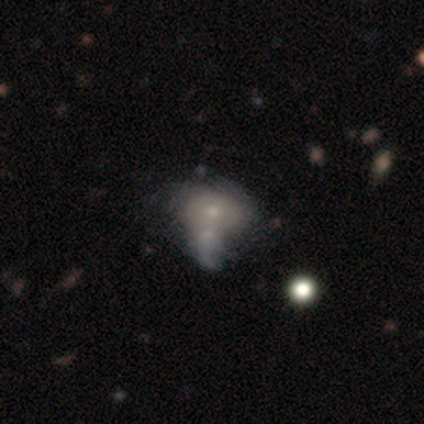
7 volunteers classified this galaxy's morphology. A smooth galaxy with no disk features (57%) that is round (50%, tied with in between). Merging: merger (67%).